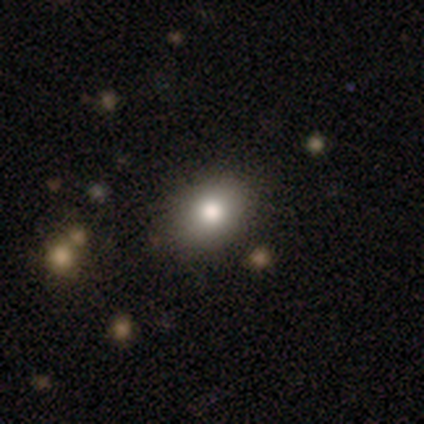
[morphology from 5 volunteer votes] smooth 100%, featured or disk 0%, star or artifact 0%. Down the decision tree: how rounded — round (60%); merging — none (100%).